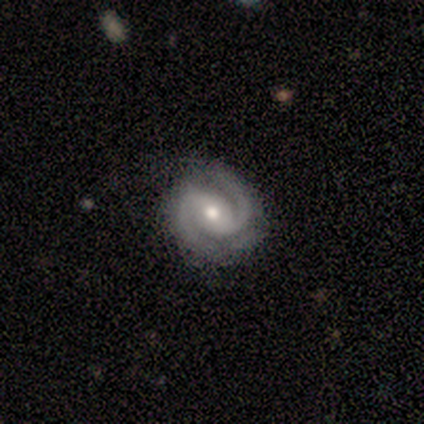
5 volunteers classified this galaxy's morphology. Smooth or featured? featured or disk (100%)
Edge-on disk? no (100%)
Bar? weak (40%, tied with no)
Spiral arms? yes (100%)
Spiral winding? medium (80%)
Spiral arm count? 2 (100%)
Bulge size? moderate (80%)
Merging? none (100%)